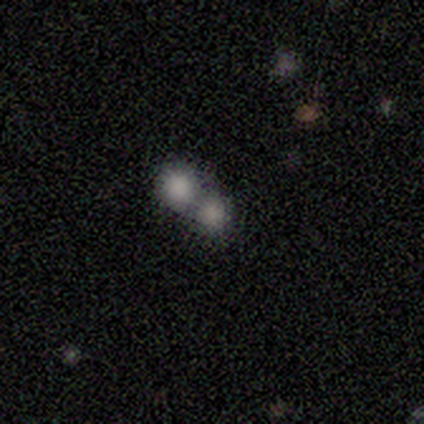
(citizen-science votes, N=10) Smooth or featured?
  - smooth: 80% *
  - featured or disk: 10%
  - star or artifact: 10%
How rounded?
  - round: 100% *
  - in between: 0%
  - cigar-shaped: 0%
Merging?
  - merger: 67% *
  - none: 33%
  - minor disturbance: 0%
  - major disturbance: 0%